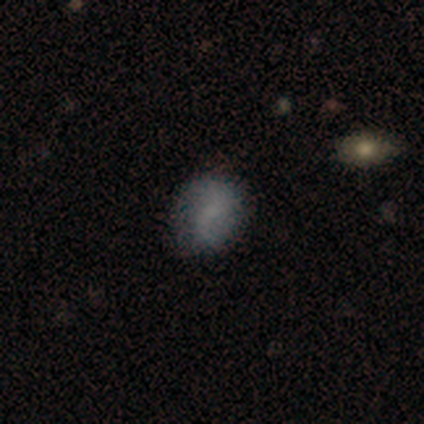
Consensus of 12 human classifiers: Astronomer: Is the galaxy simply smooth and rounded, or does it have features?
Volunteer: smooth — 50%, tied with featured or disk at 50%.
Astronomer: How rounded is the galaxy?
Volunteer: round — 50%, tied with in between at 50%.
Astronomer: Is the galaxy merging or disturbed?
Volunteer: none — 58%.